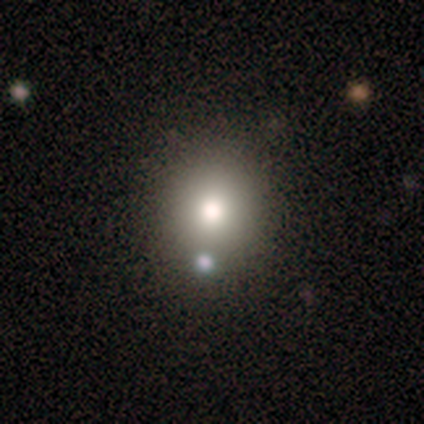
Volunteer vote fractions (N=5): This appears to be a smooth galaxy with no disk features (80%) that is round (100%). Merging: none (50%, tied with merger).